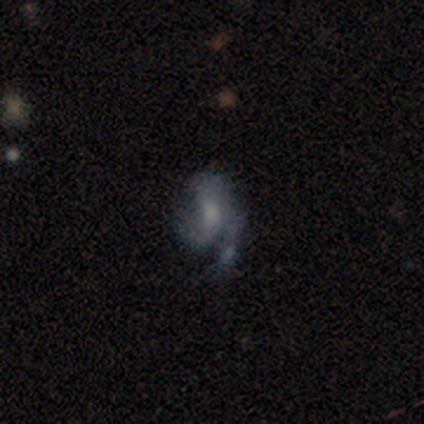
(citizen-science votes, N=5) smooth_or_featured: featured or disk (p=0.40) [tied with: star or artifact p=0.40]
disk_edge_on: no (p=1.00)
bar: weak (p=0.50) [tied with: no p=0.50]
has_spiral_arms: yes (p=1.00)
spiral_winding: loose (p=1.00)
spiral_arm_count: 1 (p=0.50) [tied with: 2 p=0.50]
bulge_size: moderate (p=1.00)
merging: minor disturbance (p=0.33) [tied with: major disturbance p=0.33, merger p=0.33]